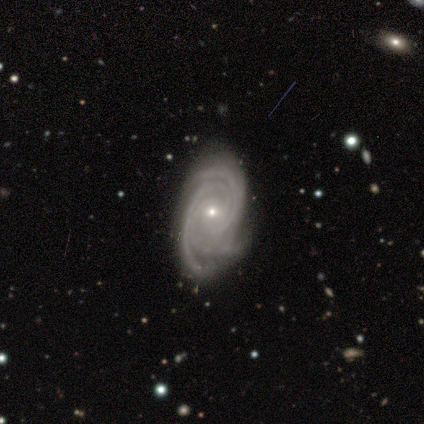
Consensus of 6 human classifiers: This appears to be a featured or disk galaxy (100%) with no bar (83%), 3 (50%) tight (100%) spiral arms (100%) and a small central bulge (83%). Merging: none (50%, tied with minor disturbance).